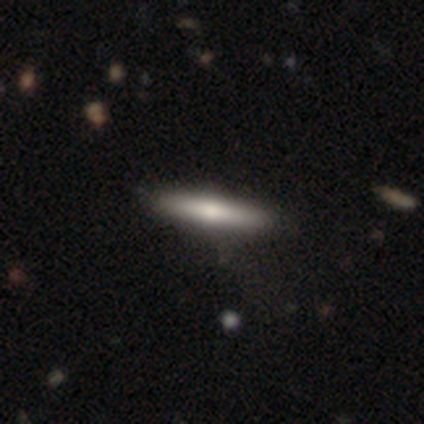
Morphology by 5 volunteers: A featured or disk galaxy (60%) viewed edge-on (100%) with a rounded central bulge (100%).

Vote fractions:
- Smooth or featured? featured or disk: 60% / smooth: 40% / star or artifact: 0%
- Edge-on disk? yes: 100% / no: 0%
- Edge-on bulge? rounded: 100% / boxy: 0% / none: 0%
- Merging? none: 60% / minor disturbance: 20% / merger: 20% / major disturbance: 0%